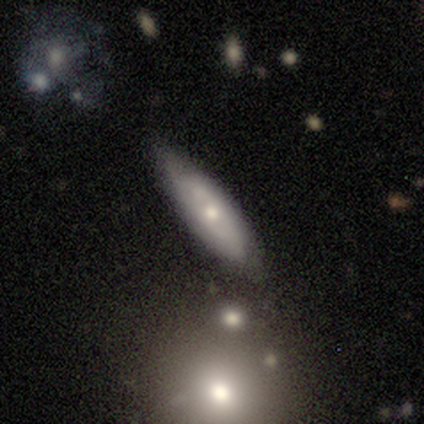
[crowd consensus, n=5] This appears to be a smooth galaxy with no disk features (60%) that is in between round and cigar-shaped (67%). Merging: none (40%, tied with minor disturbance).